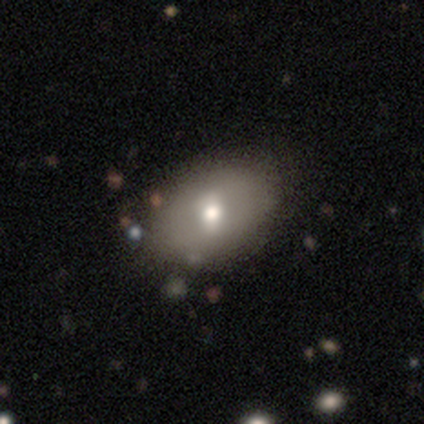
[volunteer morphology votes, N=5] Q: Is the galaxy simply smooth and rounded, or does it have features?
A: smooth — 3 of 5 (60%).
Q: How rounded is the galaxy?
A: in between — 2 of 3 (67%).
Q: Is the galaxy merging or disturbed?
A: none — 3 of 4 (75%).